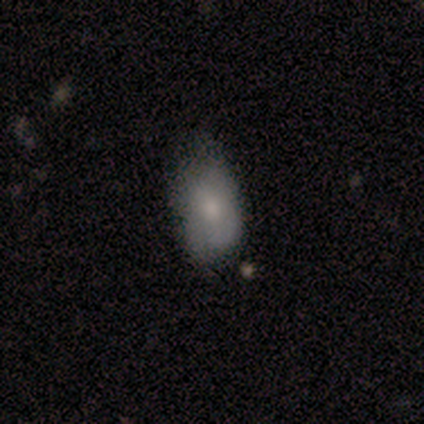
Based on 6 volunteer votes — Smooth or featured: smooth — 67% (featured or disk — 33%)
How rounded: in between — 100%
Merging: minor disturbance — 100%